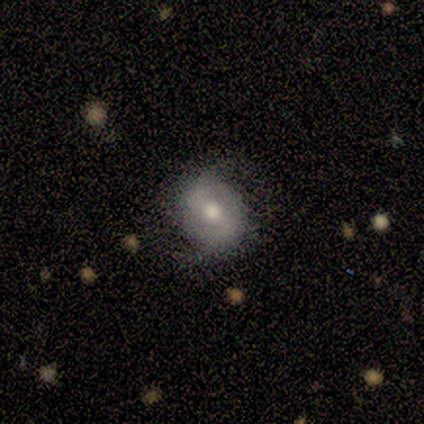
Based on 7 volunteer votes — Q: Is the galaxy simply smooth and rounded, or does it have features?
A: featured or disk — 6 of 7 (86%).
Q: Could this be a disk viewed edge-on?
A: no — 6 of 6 (100%).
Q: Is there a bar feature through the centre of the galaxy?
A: weak — 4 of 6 (67%).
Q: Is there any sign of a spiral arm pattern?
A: yes — 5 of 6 (83%).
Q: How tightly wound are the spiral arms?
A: medium — 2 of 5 (40%, tied with loose).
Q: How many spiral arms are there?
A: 2 — 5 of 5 (100%).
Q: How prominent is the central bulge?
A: moderate — 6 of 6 (100%).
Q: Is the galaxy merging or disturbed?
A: none — 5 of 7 (71%).